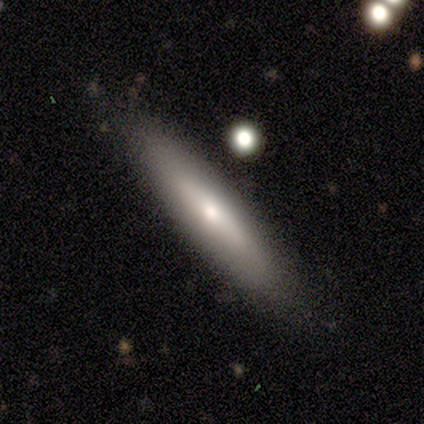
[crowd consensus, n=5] Smooth or featured? smooth (80%)
How rounded? in between (50%, tied with cigar-shaped)
Merging? none (60%)